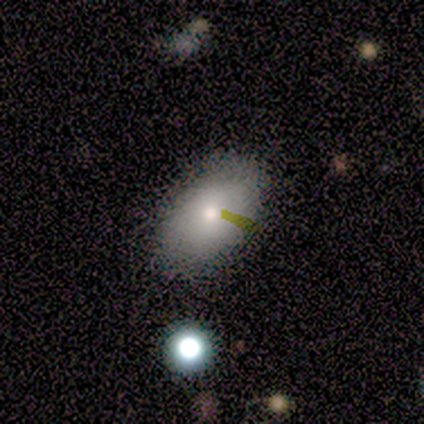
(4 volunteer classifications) Smooth or featured? 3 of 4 (75%) said smooth. How rounded? 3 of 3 (100%) said in between. Merging? 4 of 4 (100%) said none.